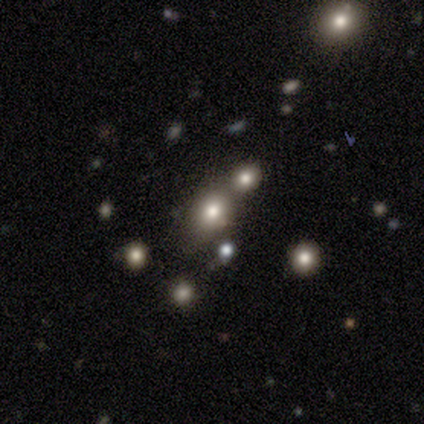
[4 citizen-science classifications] A featured or disk galaxy (50%) with no bar (100%), no spiral arms (100%) and a large central bulge (50%, tied with small). Merging: none (33%, tied with minor disturbance and merger).